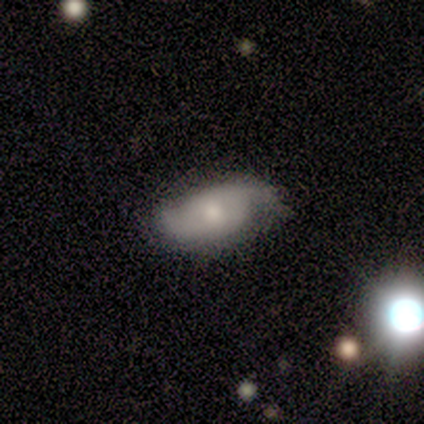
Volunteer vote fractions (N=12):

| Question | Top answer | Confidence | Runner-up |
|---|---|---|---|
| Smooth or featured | smooth | 50% | tied: featured or disk (50%) |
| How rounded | in between | 100% | — |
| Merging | none | 75% | minor disturbance (25%) |